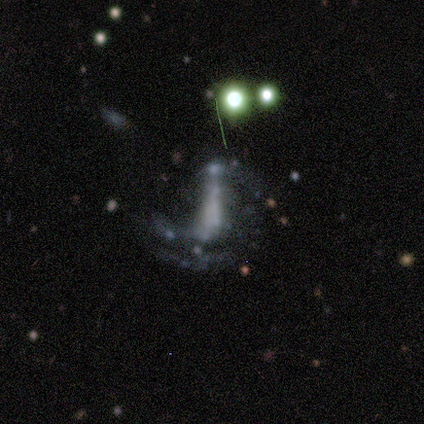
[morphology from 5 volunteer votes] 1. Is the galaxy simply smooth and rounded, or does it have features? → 80% featured or disk, 20% star or artifact, 0% smooth.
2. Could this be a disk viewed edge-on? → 75% no, 25% yes.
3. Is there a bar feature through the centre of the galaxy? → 100% strong, 0% weak, 0% no.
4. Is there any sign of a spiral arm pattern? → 67% no, 33% yes.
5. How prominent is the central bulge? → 67% none, 33% large, 0% dominant, 0% moderate, 0% small.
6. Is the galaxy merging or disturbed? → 50% major disturbance, 25% none, 25% minor disturbance, 0% merger.